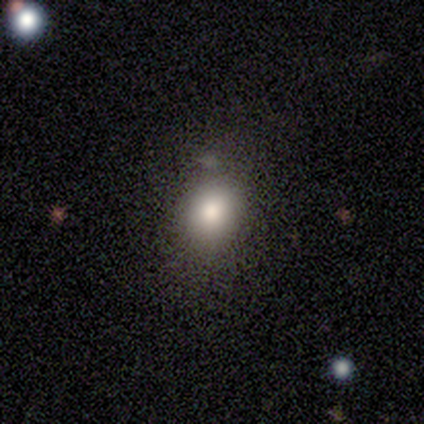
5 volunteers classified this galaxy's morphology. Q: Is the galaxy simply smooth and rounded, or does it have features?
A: smooth — 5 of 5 (100%).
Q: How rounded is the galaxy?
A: round — 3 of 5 (60%).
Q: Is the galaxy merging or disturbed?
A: none — 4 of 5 (80%).